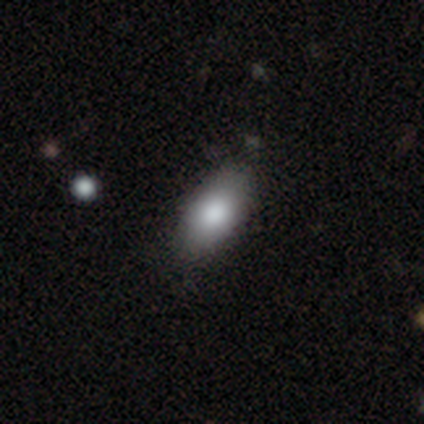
smooth 100%, featured or disk 0%, star or artifact 0%. Down the decision tree: how rounded — in between (100%); merging — none (100%).